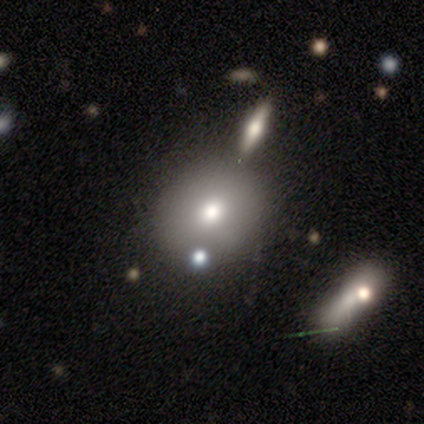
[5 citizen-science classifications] Volunteers were most divided on "merging": none: 50%, minor disturbance: 25%, merger: 25%, major disturbance: 0%. More confident: how rounded — round (100%); smooth or featured — smooth (60%).